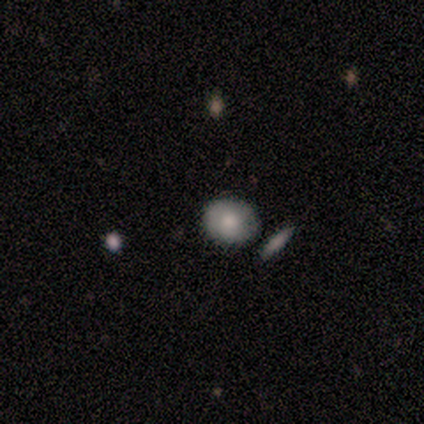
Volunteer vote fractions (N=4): Morphology: type=smooth (75%); roundness=in between (100%); merging=none (100%).